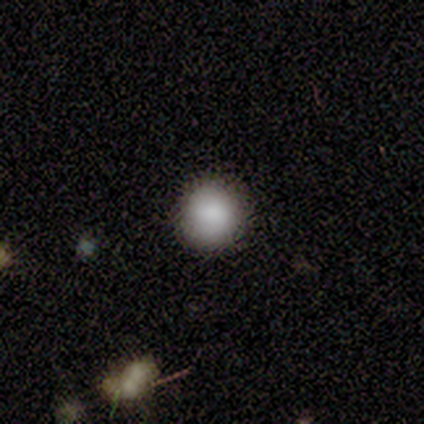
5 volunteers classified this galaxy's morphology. type=smooth (100%); roundness=round (100%); merging=none (100%).